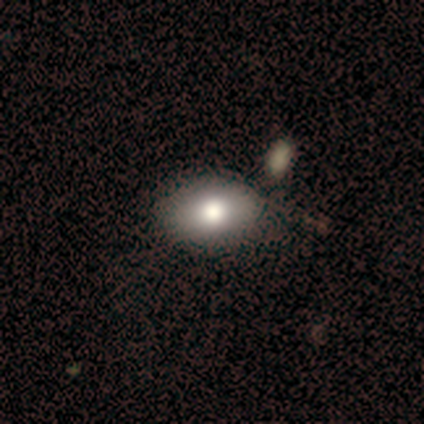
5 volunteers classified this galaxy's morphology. smooth_or_featured: smooth (p=0.80) [alt: star or artifact p=0.20]
how_rounded: in between (p=0.75) [alt: round p=0.25]
merging: none (p=0.75) [alt: minor disturbance p=0.25]